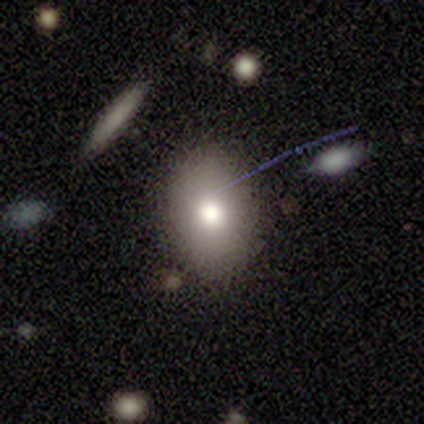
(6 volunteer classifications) A smooth galaxy with no disk features (100%) that is round (50%, tied with in between).

Vote fractions:
- Smooth or featured? smooth: 100% / featured or disk: 0% / star or artifact: 0%
- How rounded? round: 50% (tied) / in between: 50% (tied) / cigar-shaped: 0%
- Merging? none: 100% / minor disturbance: 0% / major disturbance: 0% / merger: 0%